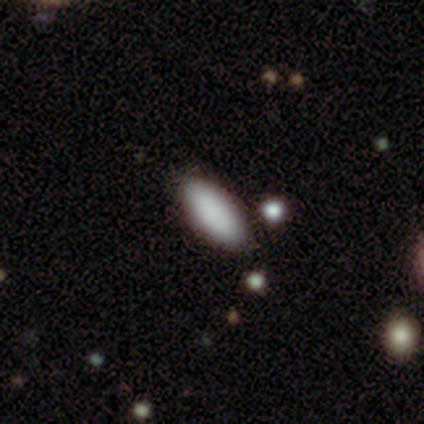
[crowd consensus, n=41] A smooth galaxy with no disk features (83%) that is in between round and cigar-shaped (71%). Merging: none (89%).